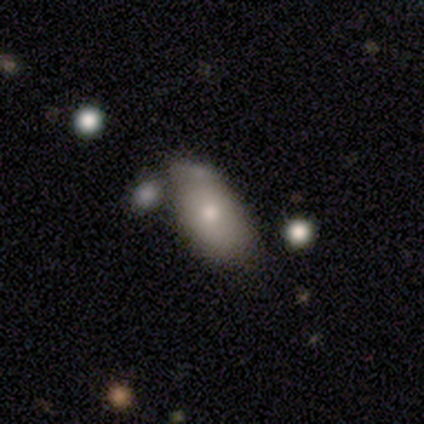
A smooth galaxy with no disk features (60%) that is in between round and cigar-shaped (100%).

Vote fractions:
- Smooth or featured? smooth: 60% / featured or disk: 20% / star or artifact: 20%
- How rounded? in between: 100% / round: 0% / cigar-shaped: 0%
- Merging? none: 75% / merger: 25% / minor disturbance: 0% / major disturbance: 0%